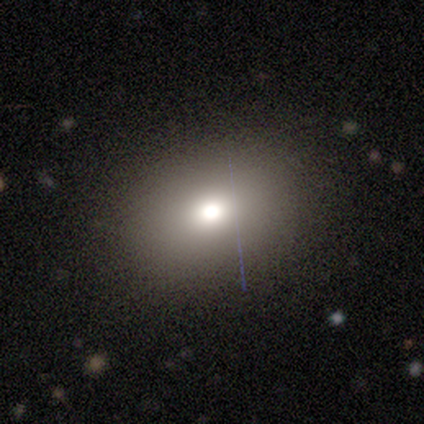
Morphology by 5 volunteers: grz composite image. It shows a smooth galaxy with no disk features (60%) that is round (33%, tied with in between and cigar-shaped). Merging: none (80%).